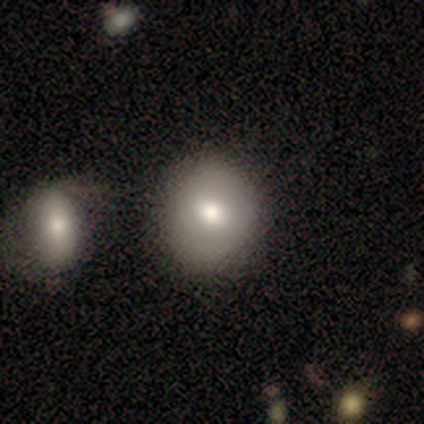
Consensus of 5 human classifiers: Smooth or featured? smooth (100%)
How rounded? in between (60%)
Merging? none (60%)